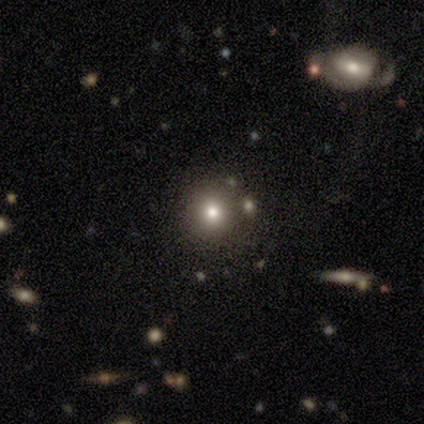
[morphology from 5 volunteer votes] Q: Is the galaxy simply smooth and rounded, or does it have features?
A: smooth — 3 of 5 (60%).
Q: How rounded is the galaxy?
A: round — 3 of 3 (100%).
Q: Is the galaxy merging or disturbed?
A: none — 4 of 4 (100%).